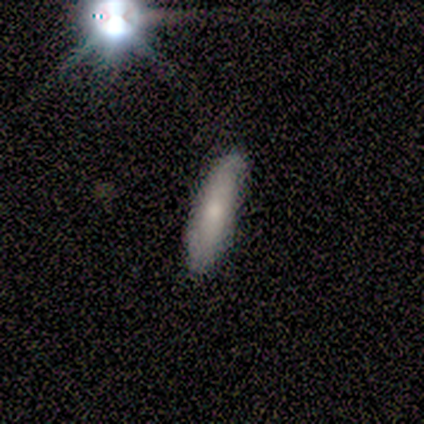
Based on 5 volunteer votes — Morphology: type=smooth (60%); roundness=cigar-shaped (67%); merging=none (75%).